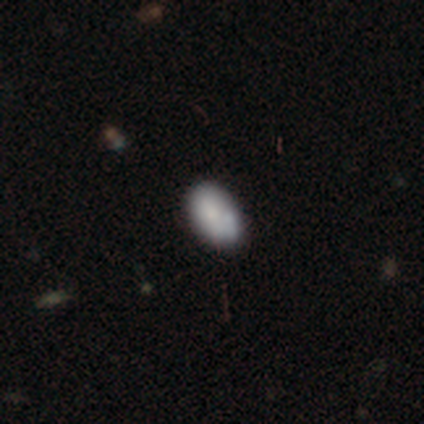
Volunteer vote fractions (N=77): Morphology: type=smooth (66%); roundness=in between (88%); merging=none (37%).